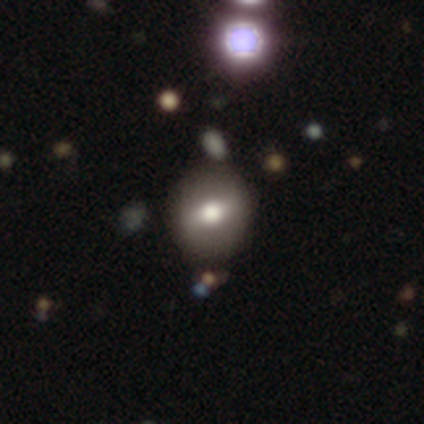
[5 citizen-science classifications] This appears to be a smooth galaxy with no disk features (80%) that is round (100%). Merging: none (100%).